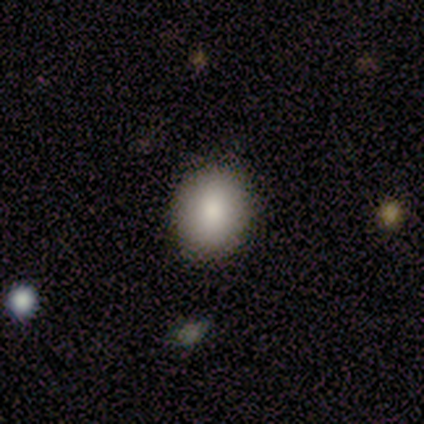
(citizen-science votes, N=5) A smooth galaxy with no disk features (60%) that is round (67%).

Vote fractions:
- Smooth or featured? smooth: 60% / star or artifact: 40% / featured or disk: 0%
- How rounded? round: 67% / in between: 33% / cigar-shaped: 0%
- Merging? none: 100% / minor disturbance: 0% / major disturbance: 0% / merger: 0%